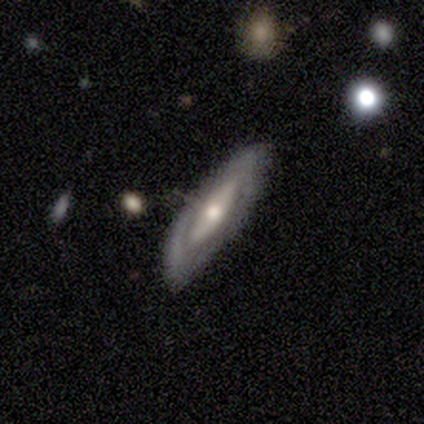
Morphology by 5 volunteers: This appears to be a featured or disk galaxy (60%) with no bar (67%), no spiral arms (67%) and a moderate central bulge (67%). Merging: none (80%).